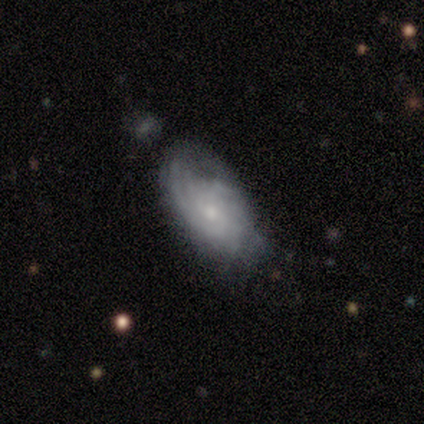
Q: Smooth or featured?
A: featured or disk (60%); runner-up: smooth (40%)
Q: Edge-on disk?
A: no (100%)
Q: Bar?
A: no (67%); runner-up: weak (33%)
Q: Spiral arms?
A: yes (67%); runner-up: no (33%)
Q: Spiral winding?
A: tight (100%)
Q: Spiral arm count?
A: 3 (100%)
Q: Bulge size?
A: moderate (67%); runner-up: small (33%)
Q: Merging?
A: none (40%); tied with: minor disturbance (40%)